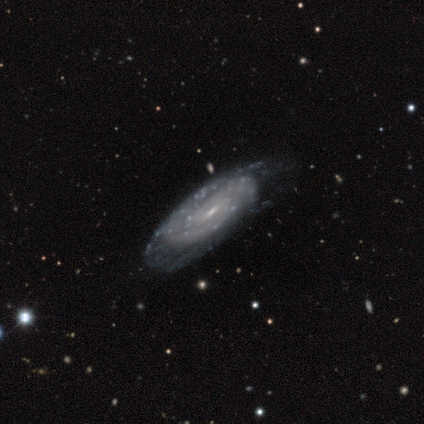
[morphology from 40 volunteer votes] type=featured or disk (98%); edge-on=no (90%); bar=weak (51%); spiral arms=yes (97%); winding=tight (79%); arm count=2 (50%); bulge=small (71%); merging=none (35%).